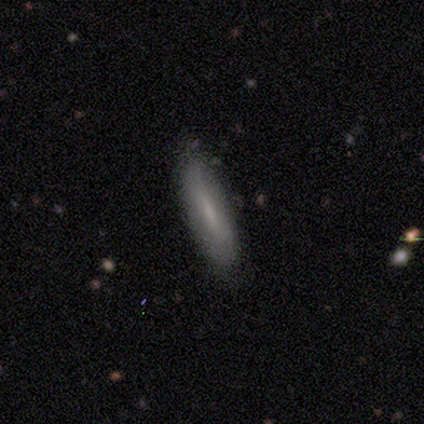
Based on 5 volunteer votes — A smooth galaxy with no disk features (100%) that is cigar-shaped (80%). Merging: none (80%).